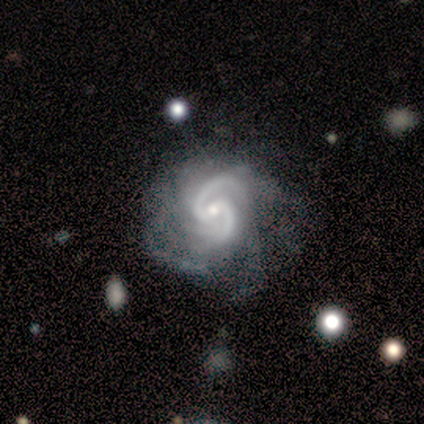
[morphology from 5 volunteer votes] Smooth or featured: featured or disk — 80% (star or artifact — 20%)
Edge-on disk: no — 100%
Bar: strong — 50% (tied with weak — 50%)
Spiral arms: yes — 100%
Spiral winding: medium — 50% (tied with loose — 50%)
Spiral arm count: 2 — 75% (can't tell — 25%)
Bulge size: moderate — 75% (small — 25%)
Merging: major disturbance — 75% (none — 25%)